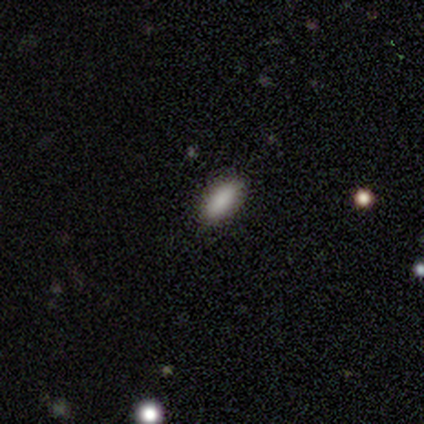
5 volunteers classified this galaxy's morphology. smooth-or-featured: smooth: 100% | featured or disk: 0% | star or artifact: 0%
  how-rounded: in between: 80% | cigar-shaped: 20% | round: 0%
  merging: none: 100% | minor disturbance: 0% | major disturbance: 0% | merger: 0%